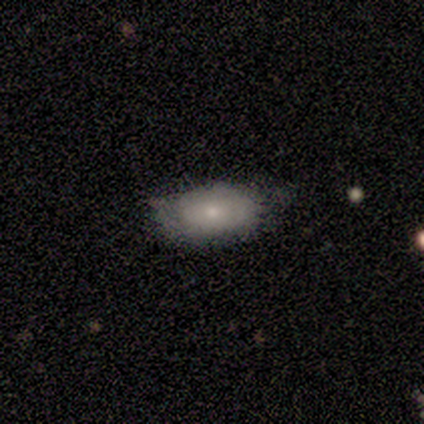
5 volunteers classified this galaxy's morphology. A smooth galaxy with no disk features (40%, tied with star or artifact) that is in between round and cigar-shaped (100%).

Vote fractions:
- Smooth or featured? smooth: 40% (tied) / star or artifact: 40% (tied) / featured or disk: 20%
- How rounded? in between: 100% / round: 0% / cigar-shaped: 0%
- Merging? none: 100% / minor disturbance: 0% / major disturbance: 0% / merger: 0%